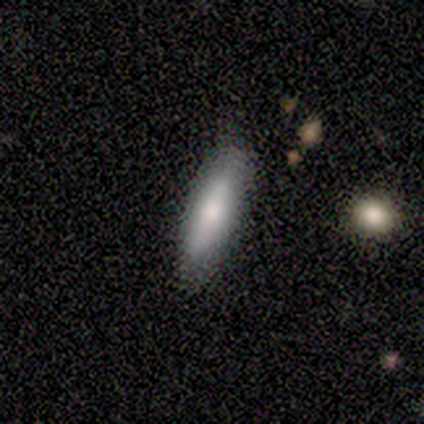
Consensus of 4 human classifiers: Morphology: type=smooth (75%); roundness=in between (67%); merging=none (100%).